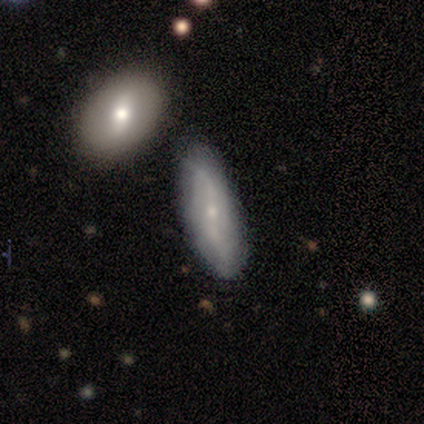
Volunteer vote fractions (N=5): Smooth or featured: smooth — 40% (tied with featured or disk — 40%)
How rounded: in between — 50% (tied with cigar-shaped — 50%)
Merging: none — 50% (minor disturbance — 25%)